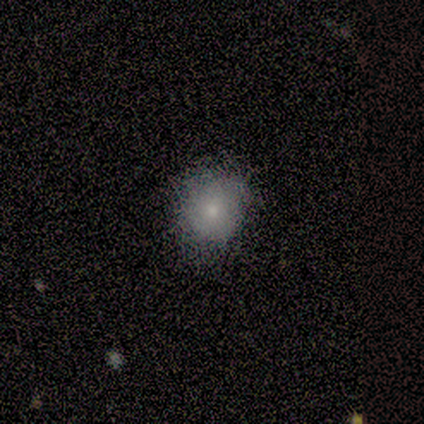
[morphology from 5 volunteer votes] Q: Smooth or featured?
A: smooth (80%); runner-up: star or artifact (20%)
Q: How rounded?
A: round (75%); runner-up: in between (25%)
Q: Merging?
A: none (100%)